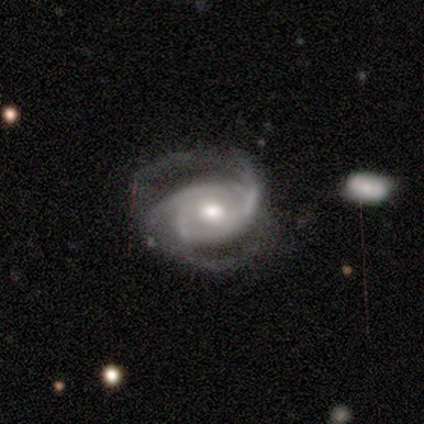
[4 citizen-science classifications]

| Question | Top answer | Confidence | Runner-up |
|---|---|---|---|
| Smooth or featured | featured or disk | 100% | — |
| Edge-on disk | no | 100% | — |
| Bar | weak | 50% | strong (25%) |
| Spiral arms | yes | 100% | — |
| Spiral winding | tight | 50% | tied: medium (50%) |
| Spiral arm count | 2 | 50% | more than 4 (25%) |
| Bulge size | small | 75% | moderate (25%) |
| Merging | minor disturbance | 50% | none (25%) |